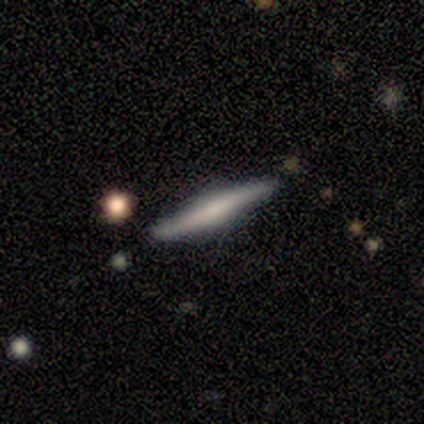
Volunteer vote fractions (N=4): A smooth galaxy with no disk features (75%) that is cigar-shaped (100%). Merging: none (75%).